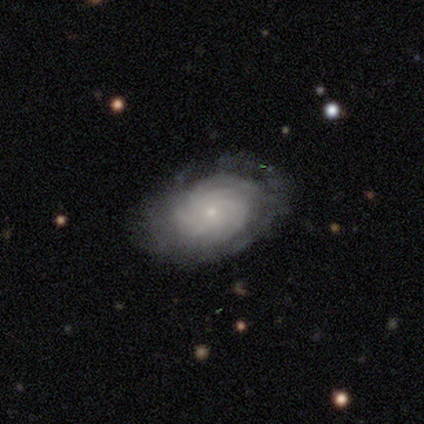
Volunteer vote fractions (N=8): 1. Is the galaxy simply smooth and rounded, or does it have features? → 75% featured or disk, 25% smooth, 0% star or artifact.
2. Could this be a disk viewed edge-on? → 100% no, 0% yes.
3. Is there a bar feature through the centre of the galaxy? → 100% no, 0% strong, 0% weak.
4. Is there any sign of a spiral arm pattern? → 100% yes, 0% no.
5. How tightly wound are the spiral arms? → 100% tight, 0% medium, 0% loose.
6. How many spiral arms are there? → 67% more than 4, 17% 4, 17% can't tell, 0% 1, 0% 2, 0% 3.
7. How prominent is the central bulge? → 100% small, 0% dominant, 0% large, 0% moderate, 0% none.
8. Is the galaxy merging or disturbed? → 88% none, 12% minor disturbance, 0% major disturbance, 0% merger.